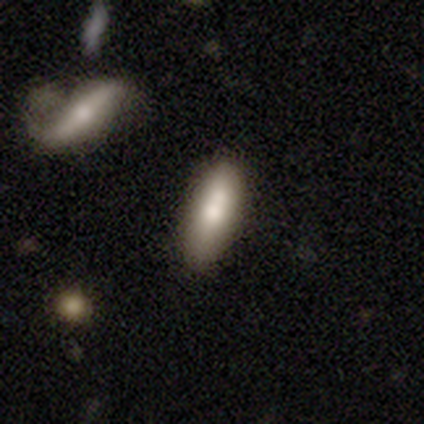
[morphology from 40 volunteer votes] smooth_or_featured: smooth (p=0.65) [alt: featured or disk p=0.33]
how_rounded: in between (p=0.65) [alt: cigar-shaped p=0.35]
merging: none (p=0.67) [alt: minor disturbance p=0.18]